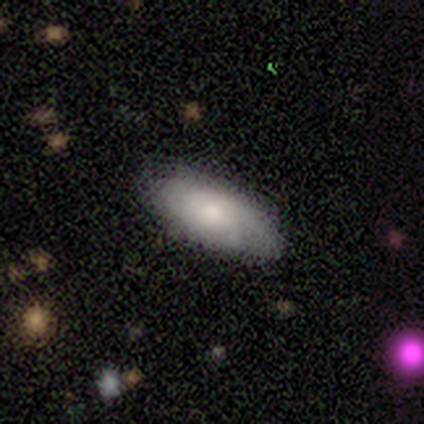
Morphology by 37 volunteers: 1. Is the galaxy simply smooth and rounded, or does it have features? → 65% smooth, 32% featured or disk, 3% star or artifact.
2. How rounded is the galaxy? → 88% in between, 12% cigar-shaped, 0% round.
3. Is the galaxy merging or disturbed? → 86% none, 8% minor disturbance, 6% major disturbance, 0% merger.